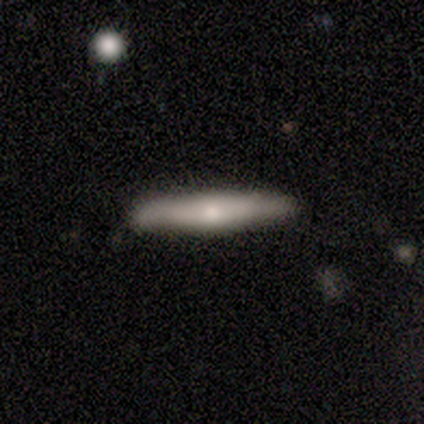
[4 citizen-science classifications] Smooth or featured? 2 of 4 (50%, tied with featured or disk) said smooth. How rounded? 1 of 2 (50%, tied with cigar-shaped) said in between. Merging? 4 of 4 (100%) said none.